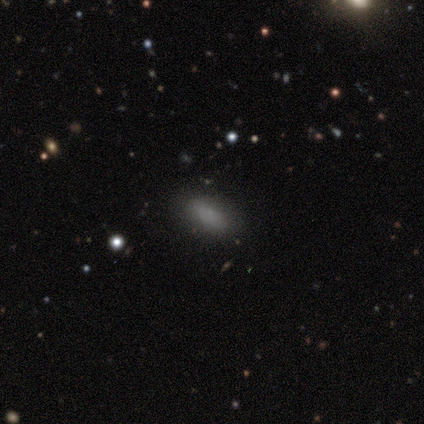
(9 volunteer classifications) Q: Smooth or featured?
A: smooth (89%); runner-up: featured or disk (11%)
Q: How rounded?
A: in between (100%)
Q: Merging?
A: none (78%); runner-up: minor disturbance (11%)